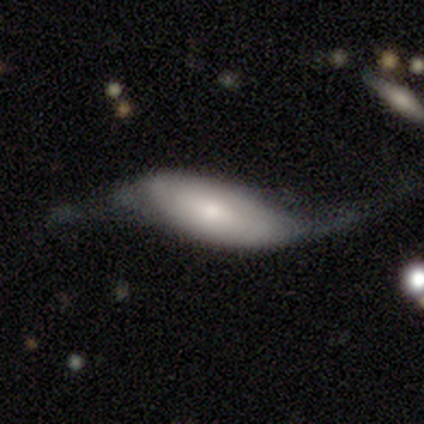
Q: Smooth or featured?
A: featured or disk (67%); runner-up: smooth (33%)
Q: Edge-on disk?
A: yes (50%); tied with: no (50%)
Q: Edge-on bulge?
A: rounded (100%)
Q: Merging?
A: minor disturbance (67%); runner-up: major disturbance (33%)